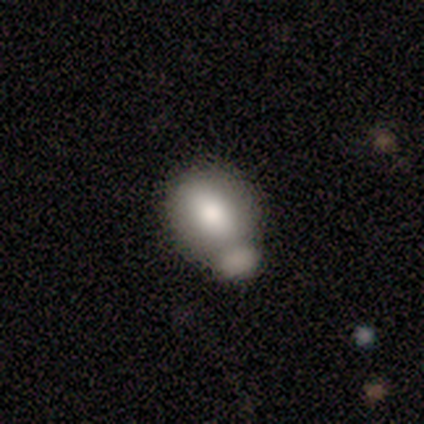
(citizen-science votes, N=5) Morphology: type=smooth (80%); roundness=in between (75%); merging=merger (50%).